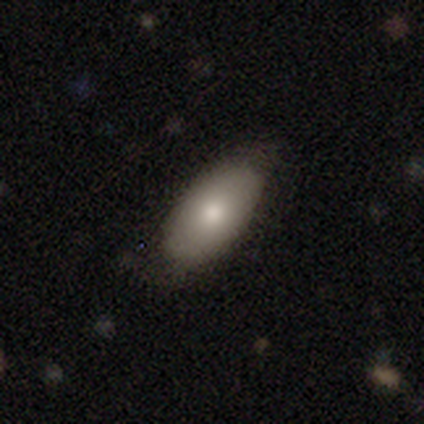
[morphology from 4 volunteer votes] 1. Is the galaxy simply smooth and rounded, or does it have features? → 100% smooth, 0% featured or disk, 0% star or artifact.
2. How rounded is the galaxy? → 100% in between, 0% round, 0% cigar-shaped.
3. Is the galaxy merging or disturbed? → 50% none (tied), 50% minor disturbance (tied), 0% major disturbance, 0% merger.